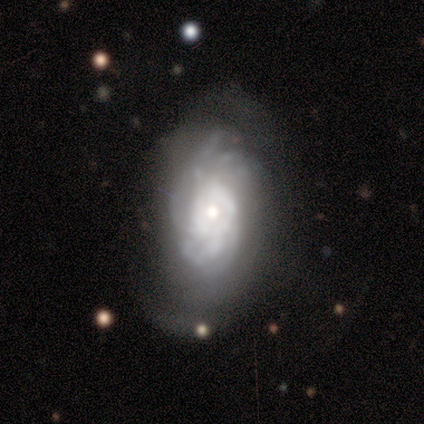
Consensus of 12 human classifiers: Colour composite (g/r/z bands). It shows a featured or disk galaxy (92%) with no bar (82%), tight (57%) spiral arms (64%) and a small central bulge (55%). Merging: none (58%).